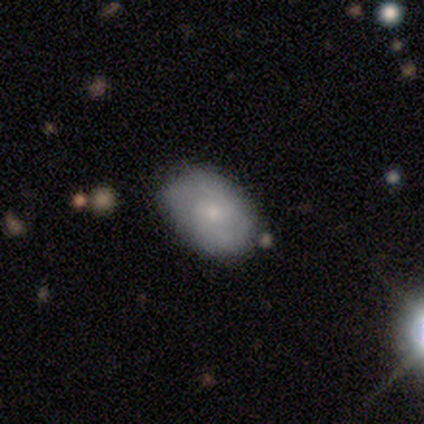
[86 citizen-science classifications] Smooth or featured? smooth (53%)
How rounded? in between (83%)
Merging? none (74%)